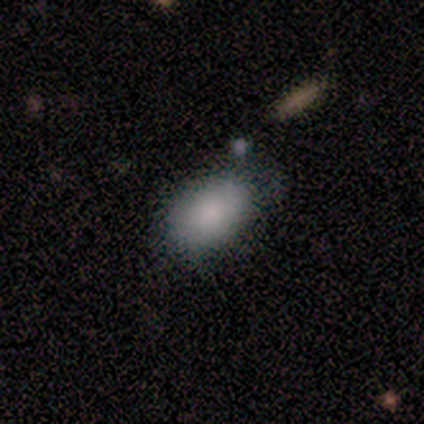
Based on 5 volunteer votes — Smooth or featured: smooth — 100%
How rounded: in between — 100%
Merging: none — 60% (minor disturbance — 40%)